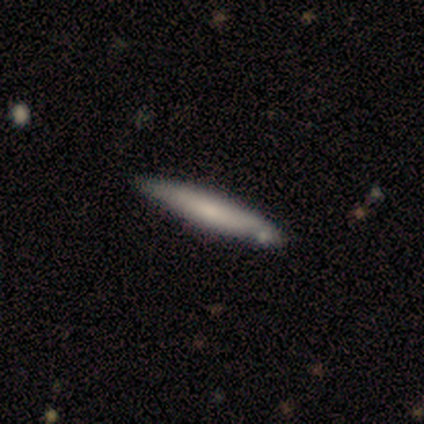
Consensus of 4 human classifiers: This is likely a smooth galaxy (75%). How rounded: clearly cigar-shaped (100%). Merging: likely none (75%).